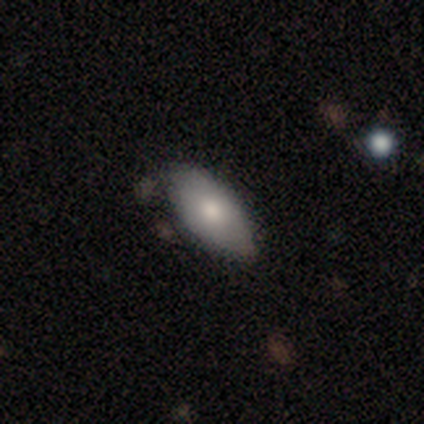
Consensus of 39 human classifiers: Smooth or featured? smooth (72%)
How rounded? in between (96%)
Merging? none (57%)